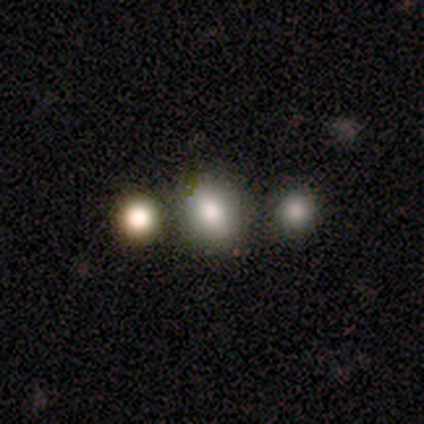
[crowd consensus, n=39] A smooth galaxy with no disk features (87%) that is round (56%).

Vote fractions:
- Smooth or featured? smooth: 87% / featured or disk: 8% / star or artifact: 5%
- How rounded? round: 56% / in between: 44% / cigar-shaped: 0%
- Merging? none: 62% / merger: 16% / minor disturbance: 8% / major disturbance: 0%